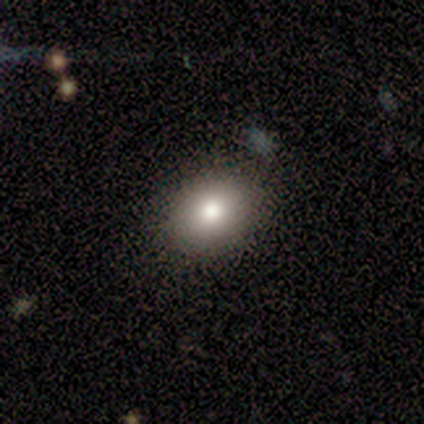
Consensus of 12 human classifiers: This appears to be a smooth galaxy with no disk features (75%) that is in between round and cigar-shaped (100%). Merging: none (80%).